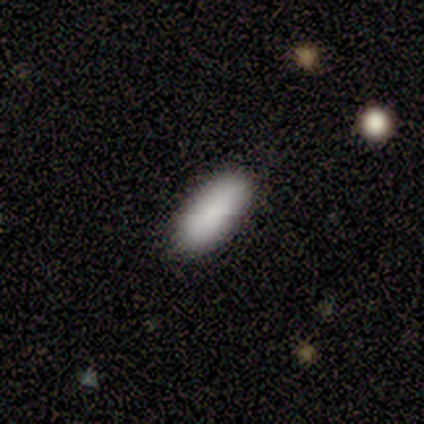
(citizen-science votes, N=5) Volunteers were most divided on "smooth or featured": smooth: 80%, star or artifact: 20%, featured or disk: 0%. More confident: how rounded — in between (100%); merging — none (100%).